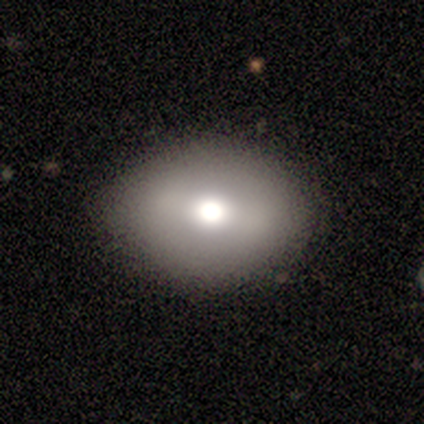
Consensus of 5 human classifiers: A smooth galaxy with no disk features (40%, tied with featured or disk) that is round (50%, tied with in between).

Vote fractions:
- Smooth or featured? smooth: 40% (tied) / featured or disk: 40% (tied) / star or artifact: 20%
- How rounded? round: 50% (tied) / in between: 50% (tied) / cigar-shaped: 0%
- Merging? none: 100% / minor disturbance: 0% / major disturbance: 0% / merger: 0%